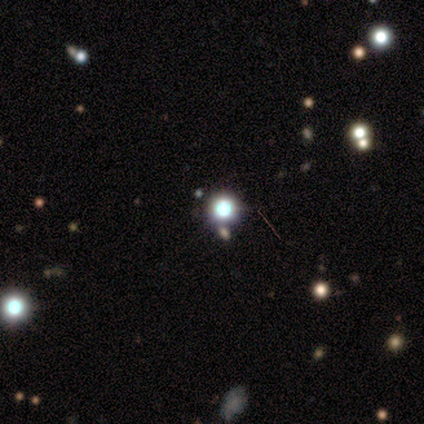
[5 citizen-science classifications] This appears to be a star or artifact, not a galaxy (80%).